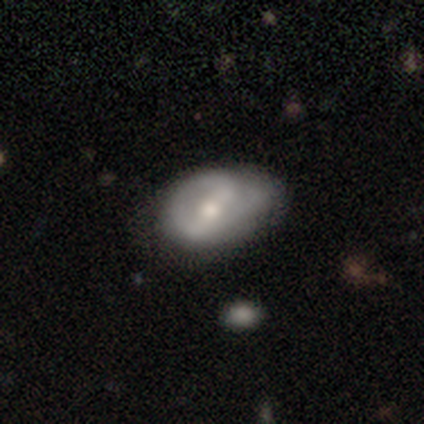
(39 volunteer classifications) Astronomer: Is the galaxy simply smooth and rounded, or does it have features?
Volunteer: featured or disk — 59% (runner-up: smooth, 36%).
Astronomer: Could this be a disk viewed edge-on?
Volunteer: no — 91%.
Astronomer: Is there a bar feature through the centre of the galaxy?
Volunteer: weak — 48% (runner-up: strong, 43%).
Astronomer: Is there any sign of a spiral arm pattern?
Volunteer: yes — 62% (runner-up: no, 38%).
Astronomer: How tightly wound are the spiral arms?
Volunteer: tight — 38%, tied with medium at 38%.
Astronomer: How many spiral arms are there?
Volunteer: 2 — 46% (runner-up: can't tell, 31%).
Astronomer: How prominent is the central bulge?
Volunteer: moderate — 57%.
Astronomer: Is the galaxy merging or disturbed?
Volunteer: none — 65%.